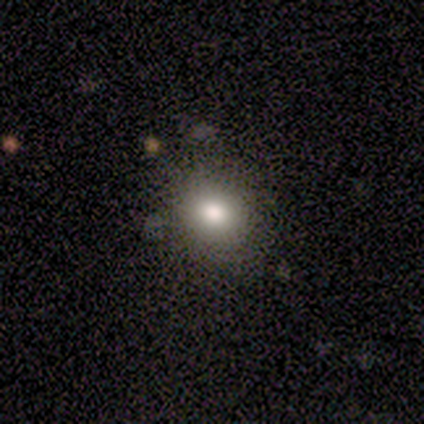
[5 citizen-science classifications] smooth-or-featured: smooth: 100% | featured or disk: 0% | star or artifact: 0%
  how-rounded: round: 80% | in between: 20% | cigar-shaped: 0%
  merging: none: 100% | minor disturbance: 0% | major disturbance: 0% | merger: 0%